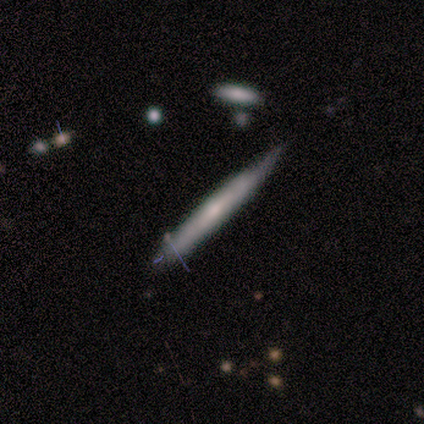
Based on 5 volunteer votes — Q: Smooth or featured?
A: featured or disk (60%); runner-up: smooth (40%)
Q: Edge-on disk?
A: yes (100%)
Q: Edge-on bulge?
A: none (67%); runner-up: rounded (33%)
Q: Merging?
A: none (60%); runner-up: minor disturbance (40%)